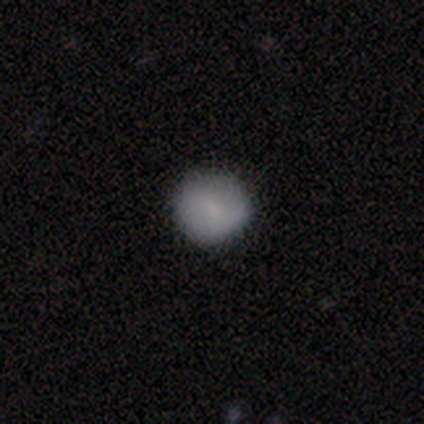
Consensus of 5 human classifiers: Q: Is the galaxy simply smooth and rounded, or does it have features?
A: smooth — 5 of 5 (100%).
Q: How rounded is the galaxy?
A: round — 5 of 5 (100%).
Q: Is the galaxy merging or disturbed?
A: none — 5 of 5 (100%).